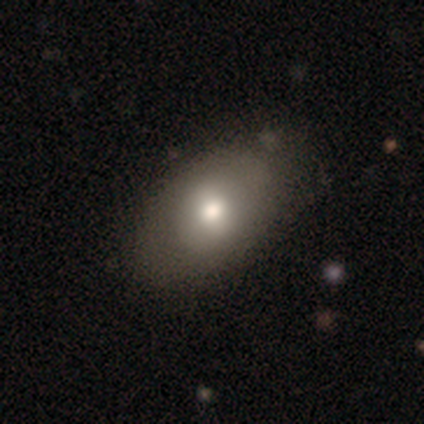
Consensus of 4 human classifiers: Smooth or featured: smooth — 50% (featured or disk — 25%)
How rounded: round — 50% (tied with in between — 50%)
Merging: none — 100%